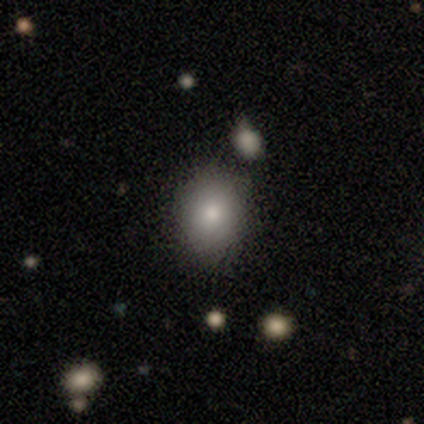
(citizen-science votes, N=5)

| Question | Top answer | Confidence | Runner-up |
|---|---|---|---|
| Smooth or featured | smooth | 80% | star or artifact (20%) |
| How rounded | round | 50% | tied: in between (50%) |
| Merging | none | 75% | minor disturbance (25%) |